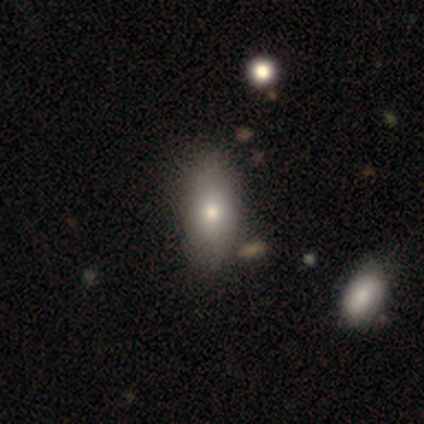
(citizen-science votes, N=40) Smooth or featured? 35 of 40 (88%) said smooth. How rounded? 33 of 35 (94%) said in between. Merging? 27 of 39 (69%) said none.